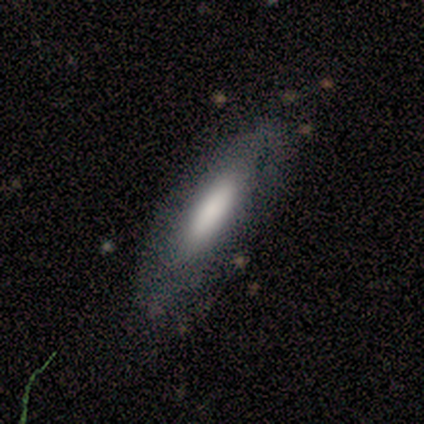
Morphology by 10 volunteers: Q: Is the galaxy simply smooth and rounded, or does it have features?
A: featured or disk — 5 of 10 (50%).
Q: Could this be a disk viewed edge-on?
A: no — 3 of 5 (60%).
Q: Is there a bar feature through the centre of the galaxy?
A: no — 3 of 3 (100%).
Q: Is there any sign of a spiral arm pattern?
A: no — 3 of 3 (100%).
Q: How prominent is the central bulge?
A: moderate — 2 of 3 (67%).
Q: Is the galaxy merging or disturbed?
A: none — 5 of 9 (56%).